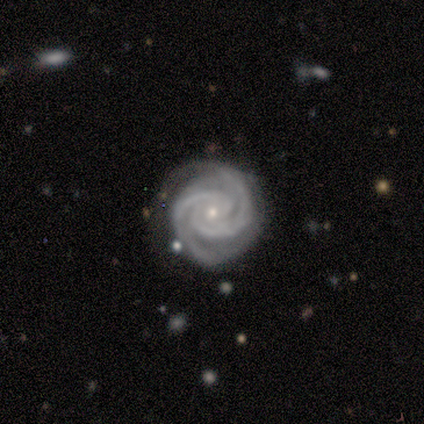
Smooth or featured? featured or disk (83%)
Edge-on disk? no (100%)
Bar? strong (80%)
Spiral arms? yes (100%)
Spiral winding? tight (80%)
Spiral arm count? 3 (60%)
Bulge size? small (80%)
Merging? none (83%)